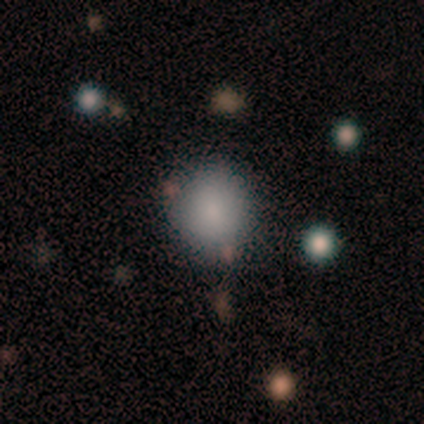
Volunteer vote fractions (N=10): A smooth galaxy with no disk features (100%) that is round (60%). Merging: none (80%).